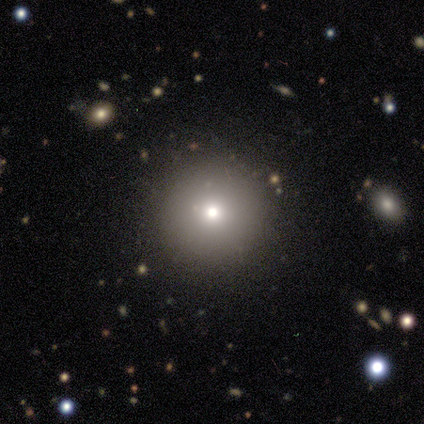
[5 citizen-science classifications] Smooth or featured? smooth (100%)
How rounded? round (100%)
Merging? none (100%)